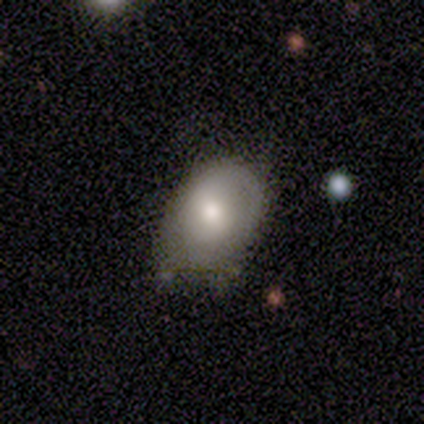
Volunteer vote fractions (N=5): Morphology: type=smooth (60%); roundness=in between (100%); merging=none (80%).